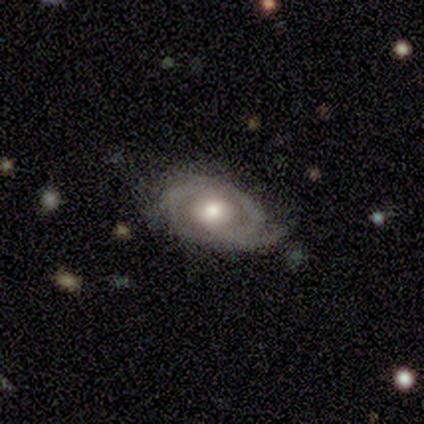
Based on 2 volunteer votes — Smooth or featured? featured or disk (100%)
Edge-on disk? no (100%)
Bar? no (100%)
Spiral arms? yes (50%, tied with no)
Spiral winding? medium (100%)
Spiral arm count? can't tell (100%)
Bulge size? large (50%, tied with moderate)
Merging? none (100%)